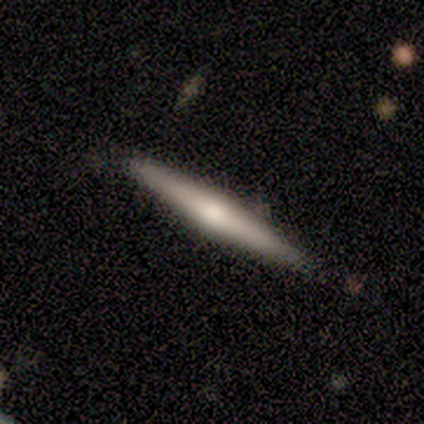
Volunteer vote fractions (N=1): Overall: smooth (100%). How rounded: cigar-shaped (100%). Merging: none (100%).